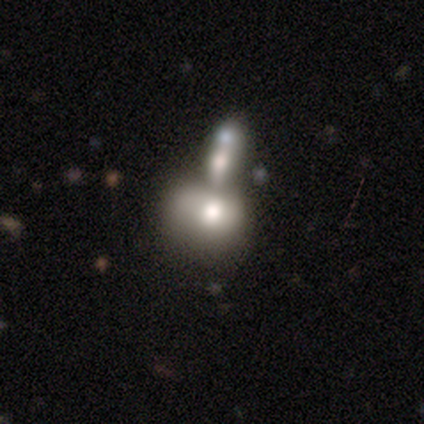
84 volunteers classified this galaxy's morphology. Smooth or featured? smooth (45%)
How rounded? in between (55%)
Merging? merger (57%)